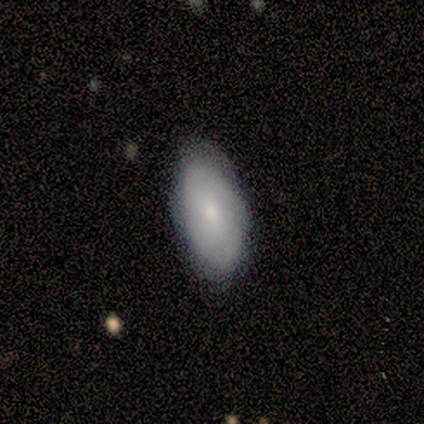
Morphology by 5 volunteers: Overall: smooth (60%; featured or disk 40%). How rounded: in between (100%). Merging: none (60%; minor disturbance 40%).